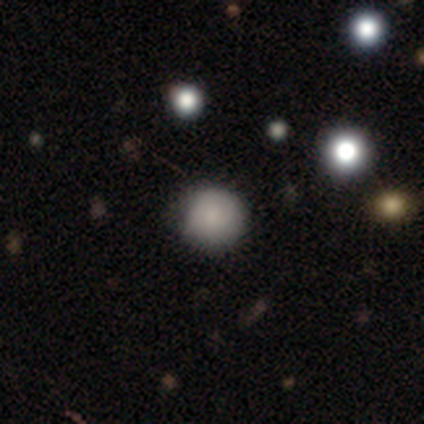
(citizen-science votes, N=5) A smooth galaxy with no disk features (80%) that is round (100%).

Vote fractions:
- Smooth or featured? smooth: 80% / star or artifact: 20% / featured or disk: 0%
- How rounded? round: 100% / in between: 0% / cigar-shaped: 0%
- Merging? none: 75% / minor disturbance: 25% / major disturbance: 0% / merger: 0%